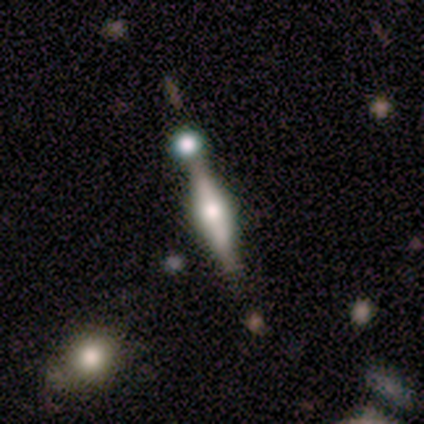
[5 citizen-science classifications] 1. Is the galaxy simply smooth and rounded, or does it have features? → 80% featured or disk, 20% smooth, 0% star or artifact.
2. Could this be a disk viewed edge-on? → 100% yes, 0% no.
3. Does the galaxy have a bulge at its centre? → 75% rounded, 25% boxy, 0% none.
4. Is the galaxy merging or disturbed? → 60% none, 20% minor disturbance, 20% merger, 0% major disturbance.